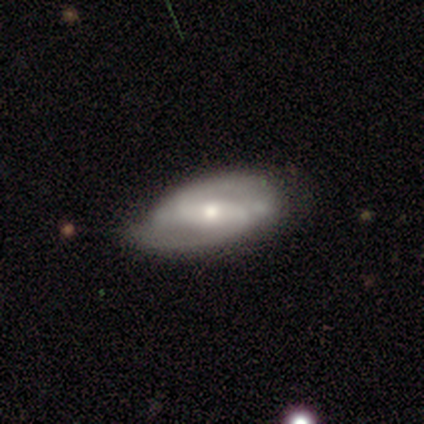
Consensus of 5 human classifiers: smooth-or-featured: featured or disk: 80% | smooth: 20% | star or artifact: 0%
  disk-edge-on: no: 100% | yes: 0%
    bar: strong: 75% | weak: 25% | no: 0%
    has-spiral-arms: yes: 100% | no: 0%
      spiral-winding: medium: 75% | tight: 25% | loose: 0%
      spiral-arm-count: 2: 100% | 1: 0% | 3: 0% | 4: 0% | more than 4: 0% | can't tell: 0%
    bulge-size: moderate: 50% (tied) | small: 50% (tied) | dominant: 0% | large: 0% | none: 0%
  merging: none: 60% | minor disturbance: 40% | major disturbance: 0% | merger: 0%